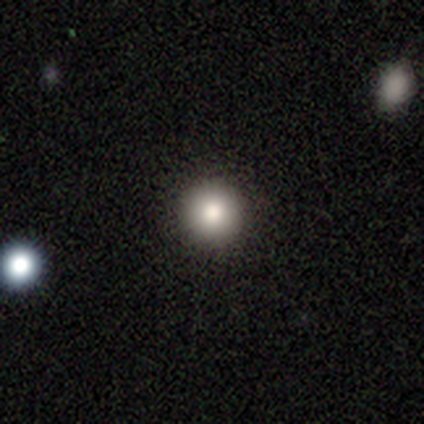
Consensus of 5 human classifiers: smooth 100%, featured or disk 0%, star or artifact 0%. Down the decision tree: how rounded — round (100%); merging — none (80%).